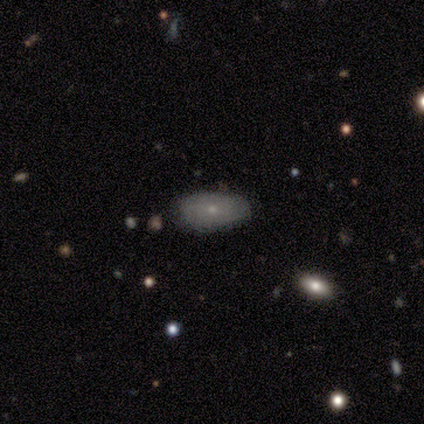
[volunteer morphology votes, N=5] Overall: smooth (60%; featured or disk 20%). How rounded: in between (100%). Merging: none (75%).